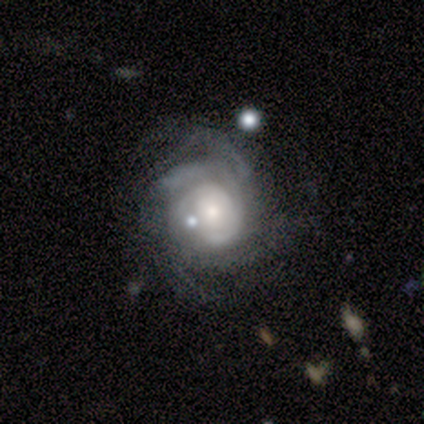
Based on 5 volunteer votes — Volunteers were most divided on "bulge size" (2-way tie): moderate: 40%, small: 40%, large: 20%, dominant: 0%, none: 0%. More confident: smooth or featured — featured or disk (100%); edge-on disk — no (100%); spiral arms — yes (80%); merging — none (80%); spiral winding — tight (75%); bar — weak (60%); spiral arm count — can't tell (50%).